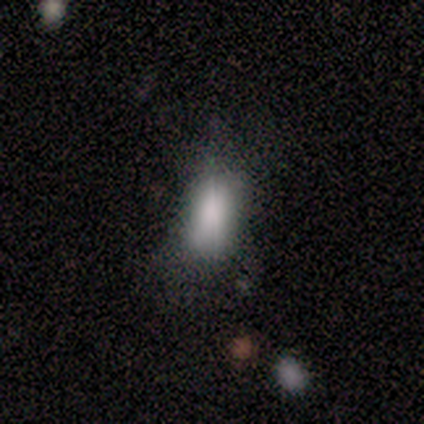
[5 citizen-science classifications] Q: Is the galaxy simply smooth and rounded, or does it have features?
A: smooth — 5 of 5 (100%).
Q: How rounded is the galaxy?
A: in between — 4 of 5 (80%).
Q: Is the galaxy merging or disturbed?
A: none — 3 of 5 (60%).